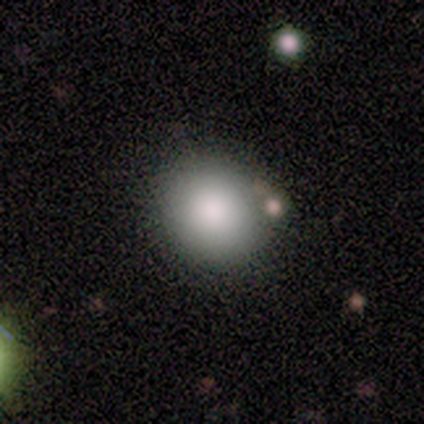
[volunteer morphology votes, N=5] This appears to be a smooth galaxy with no disk features (60%) that is round (67%). Merging: none (75%).